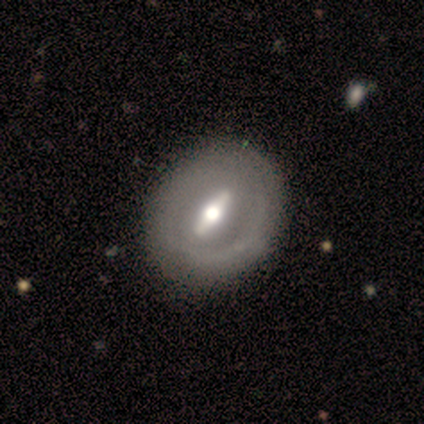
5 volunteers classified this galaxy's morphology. Smooth or featured? featured or disk (80%)
Edge-on disk? no (75%)
Bar? strong (67%)
Spiral arms? no (67%)
Bulge size? moderate (67%)
Merging? none (60%)